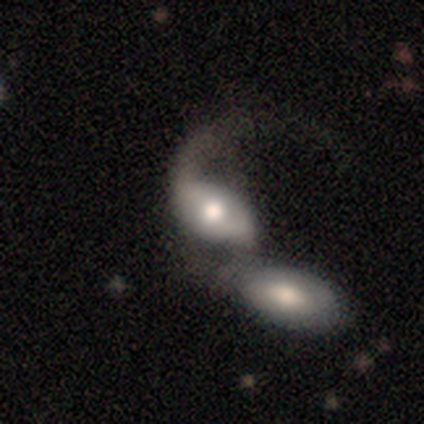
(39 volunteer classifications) This appears to be a featured or disk galaxy (51%) with no bar (70%), 1 (50%) loose (100%) spiral arms (50%, tied with no) and a moderate central bulge (55%). Merging: merger (67%).